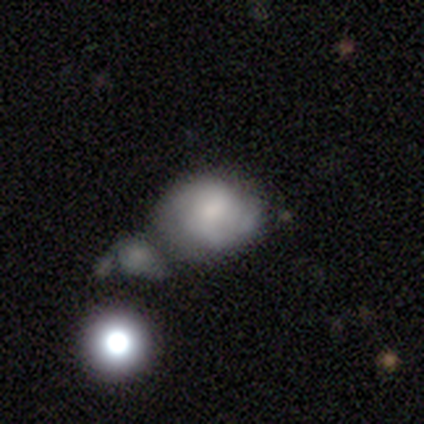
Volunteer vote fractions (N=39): Smooth or featured? featured or disk (54%)
Edge-on disk? no (95%)
Bar? no (80%)
Spiral arms? yes (60%)
Spiral winding? medium (50%)
Spiral arm count? can't tell (50%)
Bulge size? moderate (40%)
Merging? none (45%)